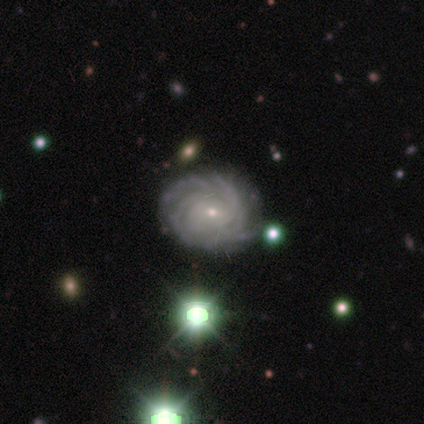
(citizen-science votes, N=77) Smooth or featured?
  - featured or disk: 96% *
  - smooth: 3%
  - star or artifact: 1%
Edge-on disk?
  - no: 100% *
  - yes: 0%
Bar?
  - no: 77% *
  - weak: 22%
  - strong: 1%
Spiral arms?
  - yes: 100% *
  - no: 0%
Spiral winding?
  - tight: 84% *
  - medium: 16%
  - loose: 0%
Spiral arm count?
  - more than 4: 34% *
  - 4: 30%
  - can't tell: 23%
  - 3: 14%
  - 1: 0%
  - 2: 0%
Bulge size?
  - small: 86% *
  - moderate: 12%
  - none: 1%
  - dominant: 0%
  - large: 0%
Merging?
  - none: 45% *
  - minor disturbance: 7%
  - merger: 4%
  - major disturbance: 0%